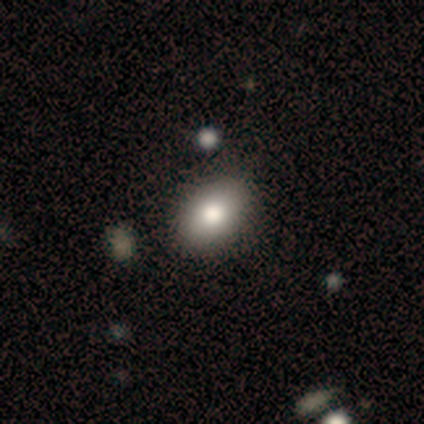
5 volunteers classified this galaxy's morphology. smooth 60%, featured or disk 40%, star or artifact 0%. Down the decision tree: how rounded — in between (100%); merging — none (80%).